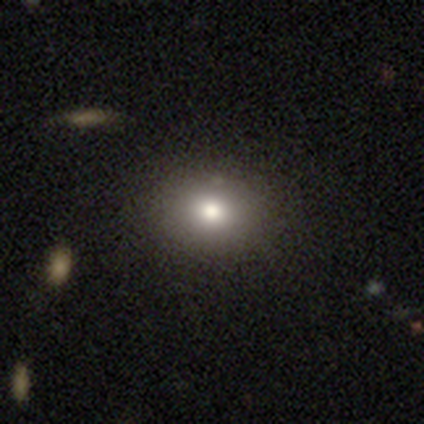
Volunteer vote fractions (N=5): A smooth galaxy with no disk features (80%) that is in between round and cigar-shaped (75%). Merging: none (100%).